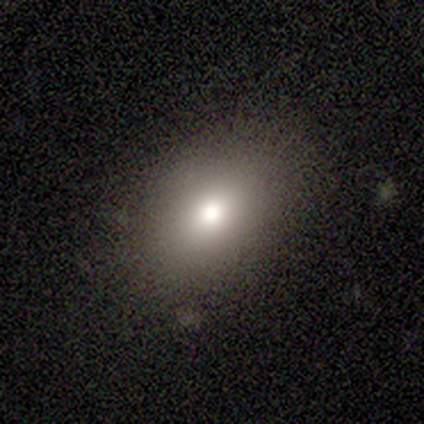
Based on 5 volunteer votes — This appears to be a smooth galaxy with no disk features (80%) that is in between round and cigar-shaped (100%). Merging: none (100%).